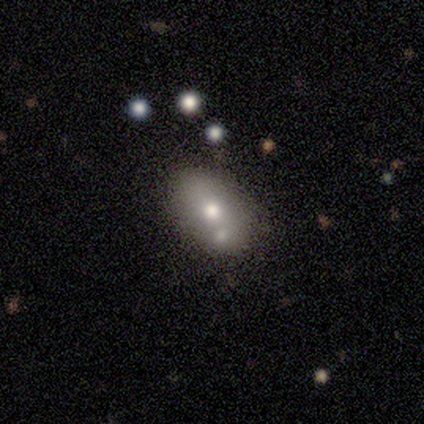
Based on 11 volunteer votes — Smooth or featured? smooth (73%)
How rounded? in between (88%)
Merging? none (45%)